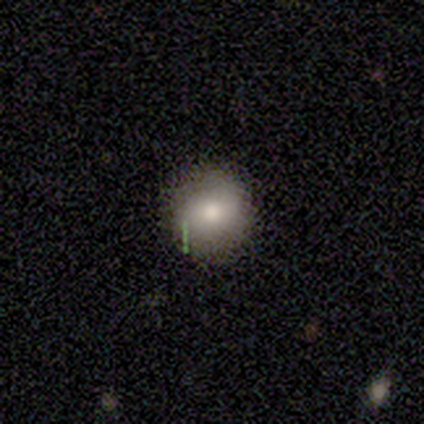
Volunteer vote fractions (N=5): Morphology: type=smooth (100%); roundness=round (100%); merging=none (100%).